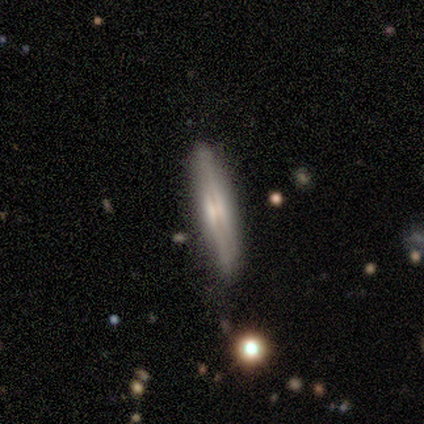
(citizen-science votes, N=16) smooth_or_featured: featured or disk (p=0.81) [alt: smooth p=0.19]
disk_edge_on: yes (p=1.00)
edge_on_bulge: rounded (p=0.77) [alt: none p=0.15]
merging: none (p=0.69) [alt: minor disturbance p=0.31]